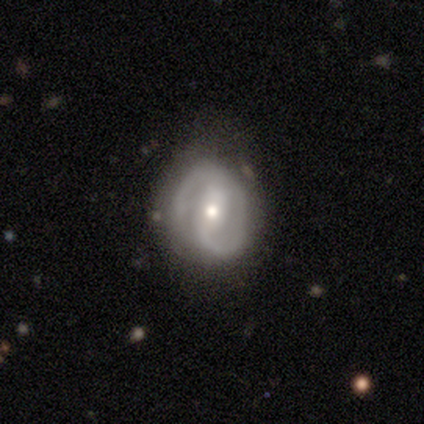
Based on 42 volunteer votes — Smooth or featured?
  - featured or disk: 83% *
  - smooth: 10%
  - star or artifact: 7%
Edge-on disk?
  - no: 100% *
  - yes: 0%
Bar?
  - strong: 46% *
  - weak: 29%
  - no: 26%
Spiral arms?
  - yes: 91% *
  - no: 9%
Spiral winding?
  - medium: 44% *
  - tight: 34%
  - loose: 22%
Spiral arm count?
  - 2: 81% *
  - can't tell: 12%
  - 1: 6%
  - 3: 0%
  - 4: 0%
  - more than 4: 0%
Bulge size?
  - moderate: 60% *
  - small: 37%
  - none: 3%
  - dominant: 0%
  - large: 0%
Merging?
  - none: 79% *
  - minor disturbance: 21%
  - major disturbance: 0%
  - merger: 0%